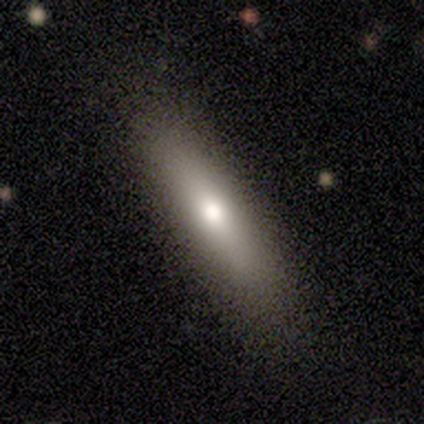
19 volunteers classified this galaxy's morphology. Q: Smooth or featured?
A: smooth (84%); runner-up: featured or disk (16%)
Q: How rounded?
A: cigar-shaped (75%); runner-up: in between (25%)
Q: Merging?
A: none (89%); runner-up: minor disturbance (11%)